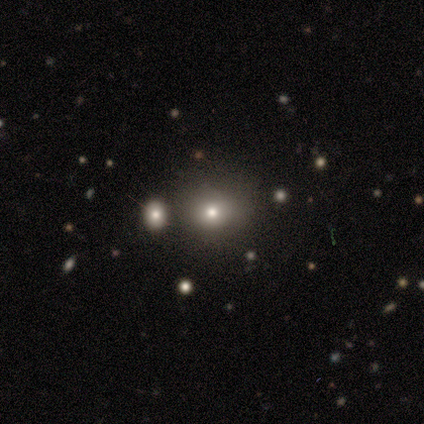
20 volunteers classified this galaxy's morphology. Smooth or featured: smooth — 70% (star or artifact — 30%)
How rounded: round — 71% (in between — 29%)
Merging: none — 64% (minor disturbance — 36%)